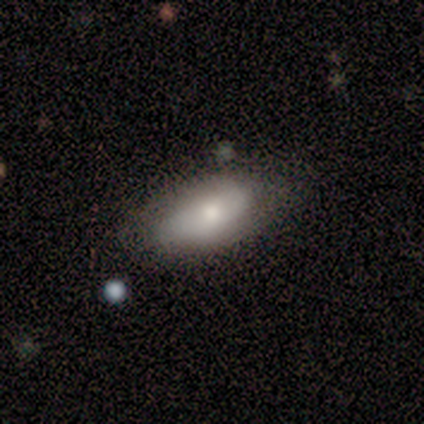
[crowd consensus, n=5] smooth_or_featured: smooth (p=0.80) [alt: star or artifact p=0.20]
how_rounded: in between (p=0.75) [alt: cigar-shaped p=0.25]
merging: none (p=0.75) [alt: minor disturbance p=0.25]